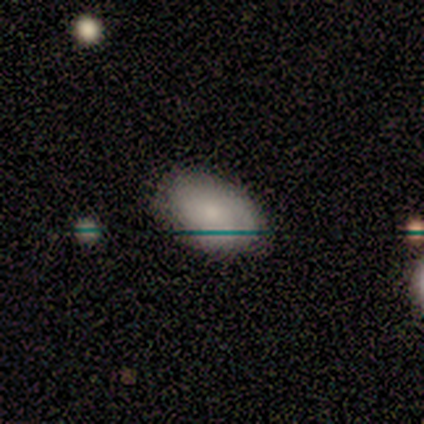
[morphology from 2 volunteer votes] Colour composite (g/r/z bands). It shows a smooth galaxy with no disk features (50%, tied with star or artifact) that is in between round and cigar-shaped (100%). Merging: none (100%).